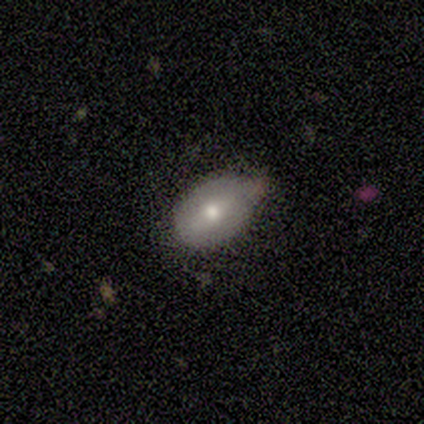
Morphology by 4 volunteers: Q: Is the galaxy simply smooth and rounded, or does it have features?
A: smooth — 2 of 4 (50%, tied with featured or disk).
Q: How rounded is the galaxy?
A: round — 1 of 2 (50%, tied with in between).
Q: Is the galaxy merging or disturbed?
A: none — 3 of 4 (75%).